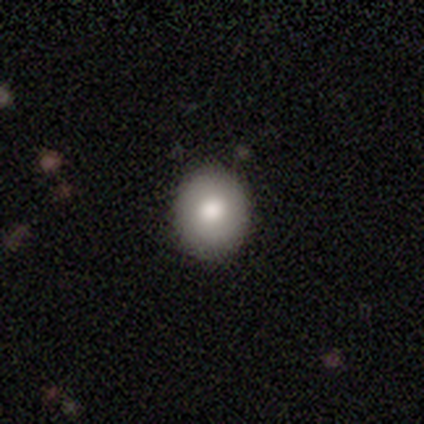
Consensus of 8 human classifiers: A smooth galaxy with no disk features (75%) that is round (83%).

Vote fractions:
- Smooth or featured? smooth: 75% / featured or disk: 25% / star or artifact: 0%
- How rounded? round: 83% / in between: 17% / cigar-shaped: 0%
- Merging? none: 100% / minor disturbance: 0% / major disturbance: 0% / merger: 0%